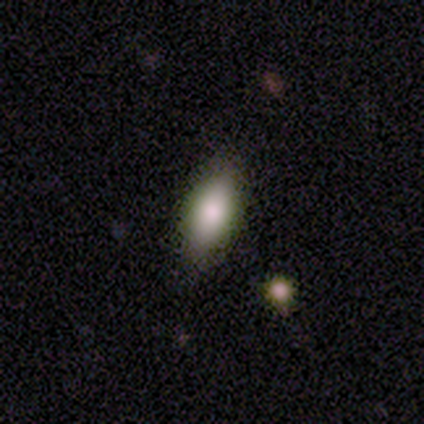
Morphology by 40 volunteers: smooth_or_featured: smooth (p=0.65) [alt: featured or disk p=0.17]
how_rounded: in between (p=0.77) [alt: cigar-shaped p=0.15]
merging: none (p=0.76) [alt: minor disturbance p=0.21]